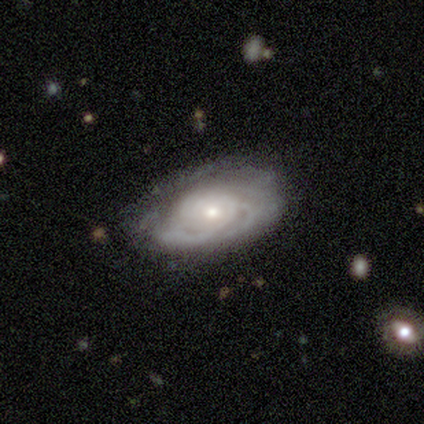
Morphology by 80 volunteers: This appears to be a featured or disk galaxy (90%) with no bar (84%), tight (75%) spiral arms (86%) and a small central bulge (49%). Merging: none (60%).